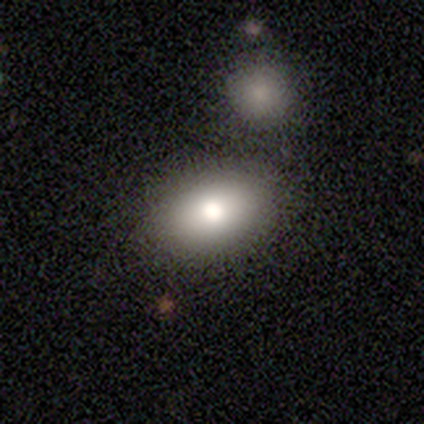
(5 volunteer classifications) This appears to be a smooth galaxy with no disk features (80%) that is in between round and cigar-shaped (75%). Merging: none (100%).